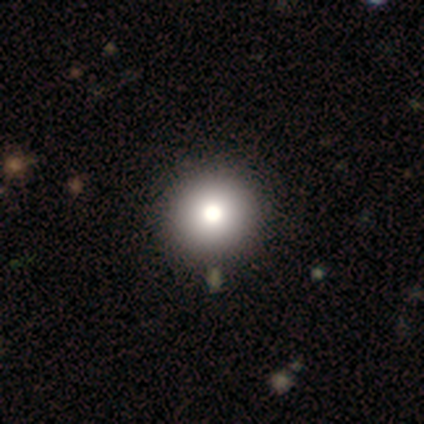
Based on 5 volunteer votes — Overall: smooth (60%; featured or disk 20%). How rounded: round (100%). Merging: none (75%).